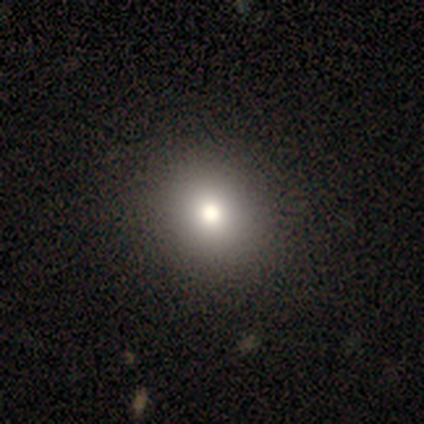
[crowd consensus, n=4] This is clearly a smooth galaxy (100%). How rounded: clearly round (100%). Merging: clearly none (100%).